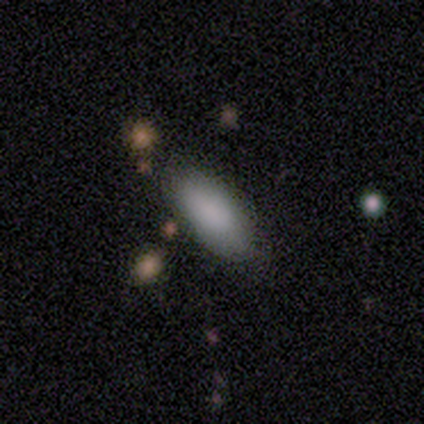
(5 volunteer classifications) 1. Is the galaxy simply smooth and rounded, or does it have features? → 100% smooth, 0% featured or disk, 0% star or artifact.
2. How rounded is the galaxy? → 100% in between, 0% round, 0% cigar-shaped.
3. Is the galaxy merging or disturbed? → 100% none, 0% minor disturbance, 0% major disturbance, 0% merger.